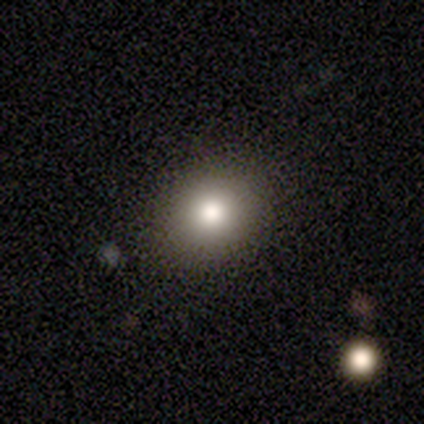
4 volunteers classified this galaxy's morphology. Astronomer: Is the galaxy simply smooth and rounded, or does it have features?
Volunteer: smooth — 50%.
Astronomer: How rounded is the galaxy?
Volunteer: round — 50%, tied with in between at 50%.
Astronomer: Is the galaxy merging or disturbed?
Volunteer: none — 100%.